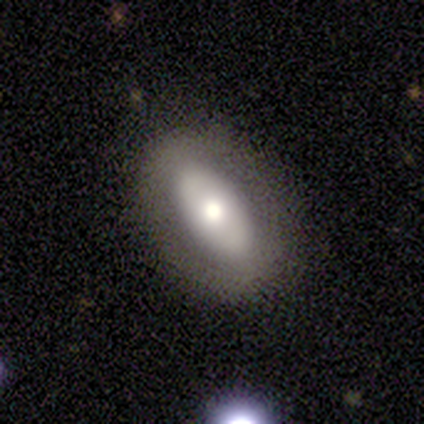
smooth_or_featured: featured or disk (p=0.62) [alt: smooth p=0.38]
disk_edge_on: no (p=1.00)
bar: no (p=1.00)
has_spiral_arms: no (p=1.00)
bulge_size: moderate (p=0.80) [alt: small p=0.20]
merging: none (p=0.62) [alt: minor disturbance p=0.25]